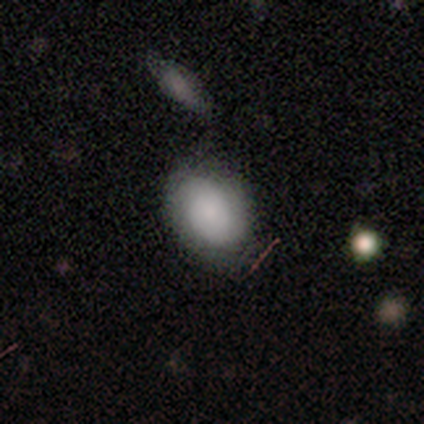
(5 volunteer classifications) smooth 80%, star or artifact 20%, featured or disk 0%. Down the decision tree: how rounded — round (50%, tied with in between); merging — none (100%).